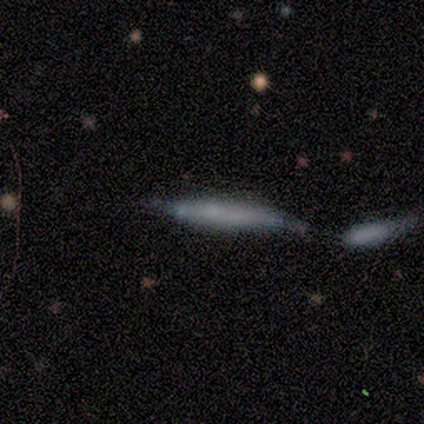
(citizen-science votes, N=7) star or artifact 57%, smooth 29%, featured or disk 14%.